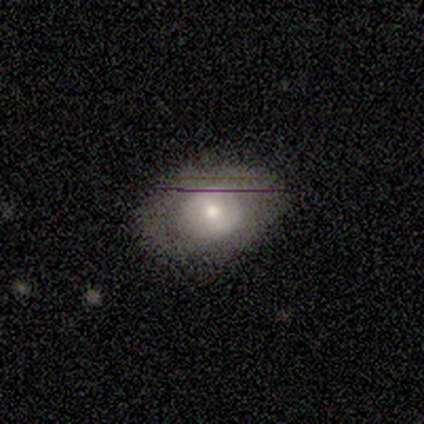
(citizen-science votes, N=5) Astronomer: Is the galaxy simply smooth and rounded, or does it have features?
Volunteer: smooth — 40%, tied with featured or disk at 40%.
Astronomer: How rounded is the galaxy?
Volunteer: in between — 100%.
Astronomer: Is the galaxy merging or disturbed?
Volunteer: none — 100%.